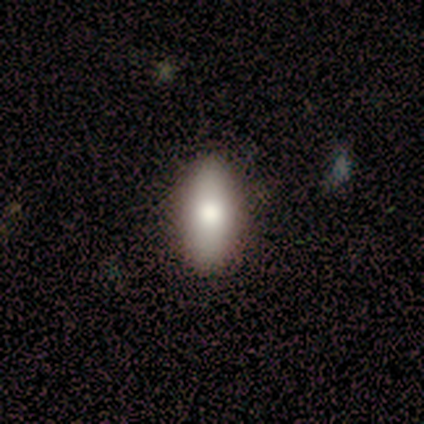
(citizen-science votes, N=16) This is likely a smooth galaxy (75%). How rounded: likely in between (75%). Merging: clearly none (100%).